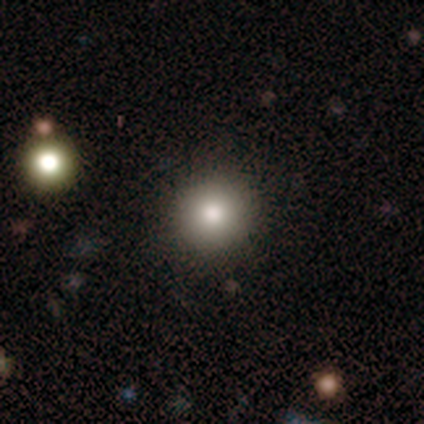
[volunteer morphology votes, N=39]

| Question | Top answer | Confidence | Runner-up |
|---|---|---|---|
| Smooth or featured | smooth | 82% | star or artifact (15%) |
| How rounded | round | 97% | cigar-shaped (3%) |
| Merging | none | 88% | minor disturbance (6%) |